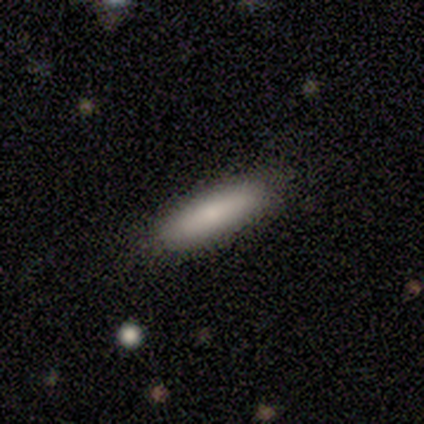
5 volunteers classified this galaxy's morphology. This appears to be a smooth galaxy with no disk features (80%) that is cigar-shaped (100%). Merging: none (100%).